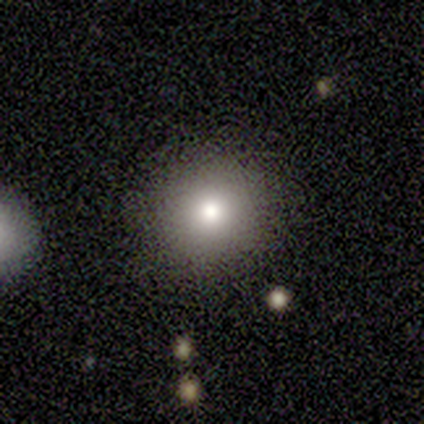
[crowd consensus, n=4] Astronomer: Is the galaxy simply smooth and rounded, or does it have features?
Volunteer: smooth — 50%.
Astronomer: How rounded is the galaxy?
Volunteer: round — 100%.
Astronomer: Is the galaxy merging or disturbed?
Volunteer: none — 100%.